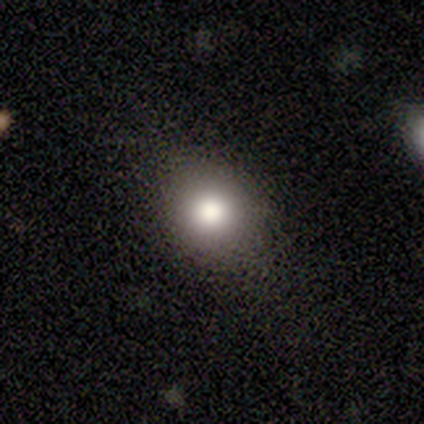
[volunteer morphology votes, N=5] A smooth galaxy with no disk features (100%) that is round (80%). Merging: minor disturbance (60%).